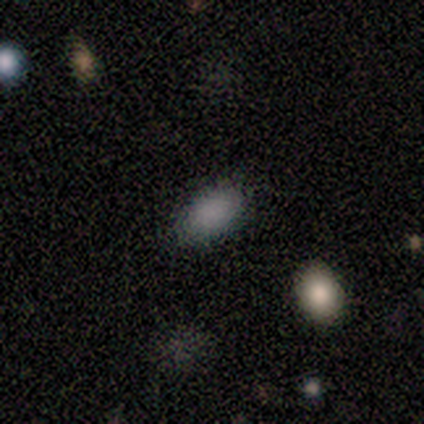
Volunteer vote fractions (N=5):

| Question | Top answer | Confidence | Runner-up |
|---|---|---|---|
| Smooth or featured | smooth | 60% | featured or disk (20%) |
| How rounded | in between | 67% | round (33%) |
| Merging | none | 75% | minor disturbance (25%) |